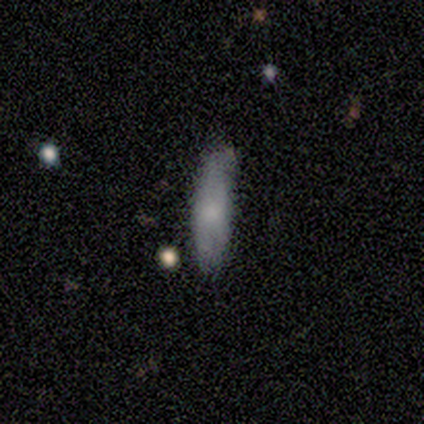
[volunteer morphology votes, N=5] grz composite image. It shows a smooth galaxy with no disk features (60%) that is cigar-shaped (100%). Merging: none (80%).